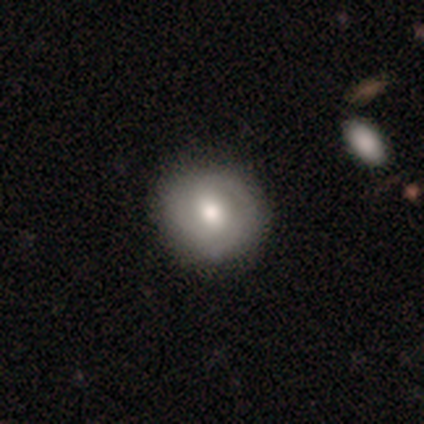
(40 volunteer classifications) Overall: smooth (65%; featured or disk 32%). How rounded: round (85%). Merging: none (74%).